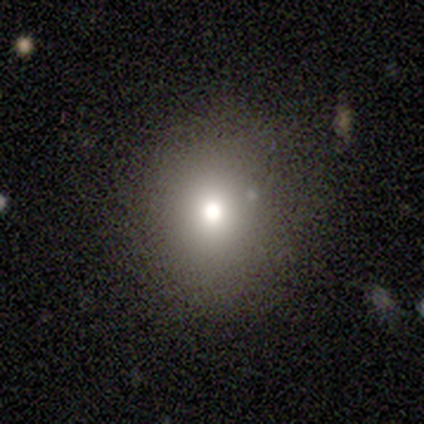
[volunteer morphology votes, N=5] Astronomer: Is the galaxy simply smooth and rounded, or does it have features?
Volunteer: smooth — 100%.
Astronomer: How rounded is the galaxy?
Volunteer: round — 80%.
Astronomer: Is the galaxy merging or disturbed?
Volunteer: none — 80%.